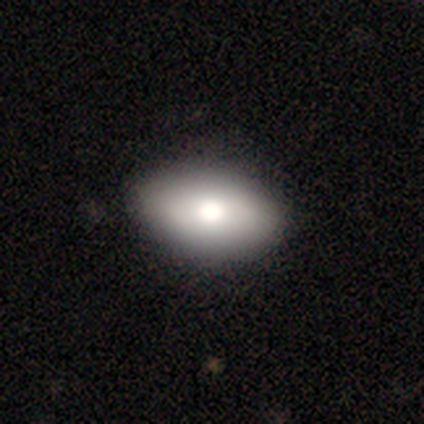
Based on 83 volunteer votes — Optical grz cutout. It shows a smooth galaxy with no disk features (77%) that is in between round and cigar-shaped (89%). Merging: none (92%).